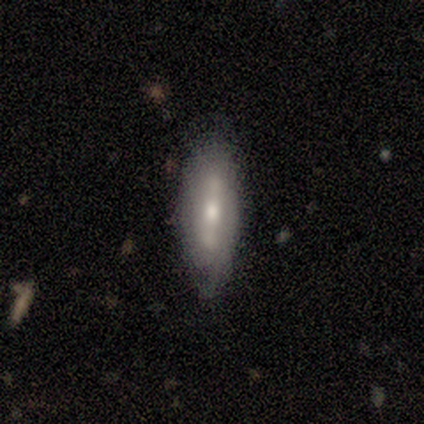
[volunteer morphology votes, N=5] Overall: featured or disk (100%). Edge-on disk: yes (60%; no 40%). Edge-on bulge: boxy (33%, tied with none and rounded). Merging: none (80%).